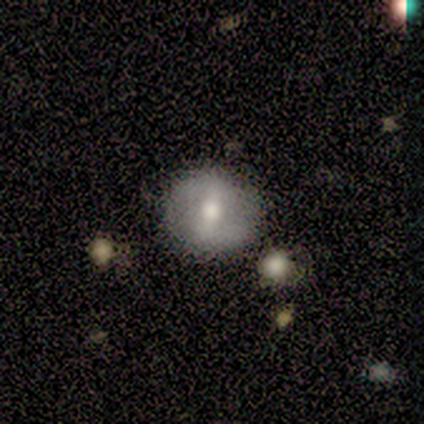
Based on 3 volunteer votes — Volunteers were most divided on "smooth or featured": smooth: 67%, featured or disk: 33%, star or artifact: 0%. More confident: how rounded — round (100%); merging — none (100%).